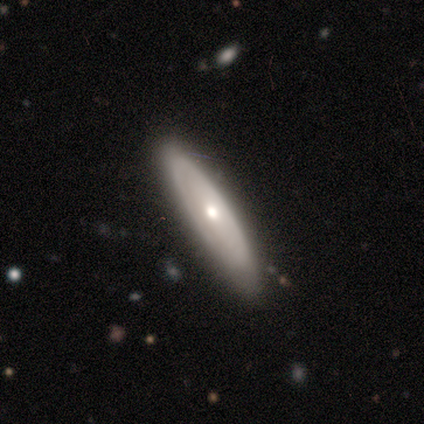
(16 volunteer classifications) Smooth or featured: featured or disk — 81% (smooth — 19%)
Edge-on disk: no — 54% (yes — 46%)
Bar: no — 86% (strong — 14%)
Spiral arms: yes — 57% (no — 43%)
Spiral winding: tight — 75% (medium — 25%)
Spiral arm count: 2 — 50% (tied with can't tell — 50%)
Bulge size: moderate — 57% (small — 43%)
Merging: none — 94% (minor disturbance — 6%)